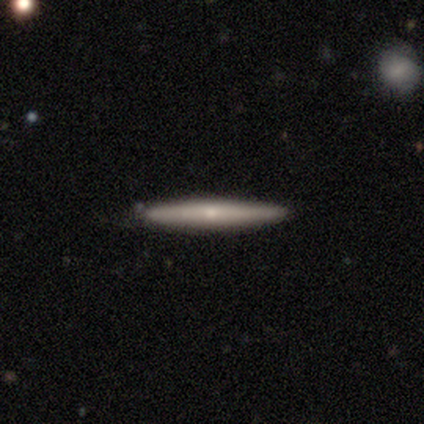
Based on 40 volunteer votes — Smooth or featured? 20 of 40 (50%) said featured or disk. Edge-on disk? 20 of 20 (100%) said yes. Edge-on bulge? 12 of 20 (60%) said rounded. Merging? 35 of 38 (92%) said none.